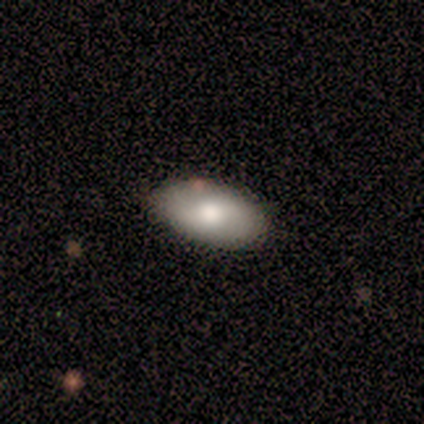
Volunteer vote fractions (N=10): Smooth or featured? 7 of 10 (70%) said smooth. How rounded? 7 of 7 (100%) said in between. Merging? 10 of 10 (100%) said none.